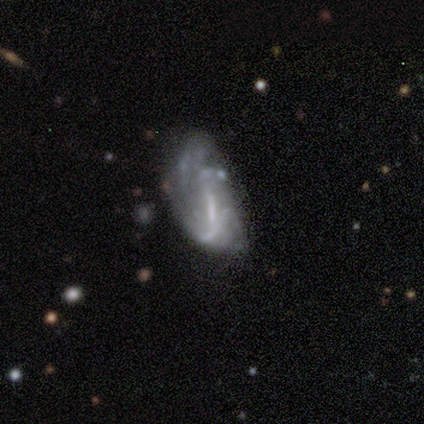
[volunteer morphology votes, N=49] Q: Smooth or featured?
A: featured or disk (71%); runner-up: smooth (24%)
Q: Edge-on disk?
A: no (97%); runner-up: yes (3%)
Q: Bar?
A: weak (50%); runner-up: no (26%)
Q: Spiral arms?
A: yes (50%); tied with: no (50%)
Q: Spiral winding?
A: medium (35%); tied with: loose (35%)
Q: Spiral arm count?
A: can't tell (53%); runner-up: 2 (29%)
Q: Bulge size?
A: small (44%); runner-up: none (35%)
Q: Merging?
A: major disturbance (34%); runner-up: none (28%)